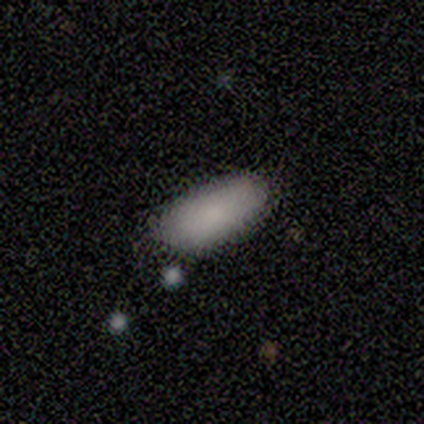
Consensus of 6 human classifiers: Q: Smooth or featured?
A: smooth (100%)
Q: How rounded?
A: in between (100%)
Q: Merging?
A: none (50%); runner-up: minor disturbance (33%)